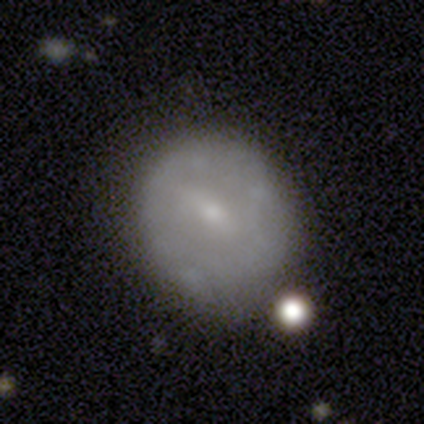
A smooth galaxy with no disk features (54%) that is round (76%). Merging: none (50%).